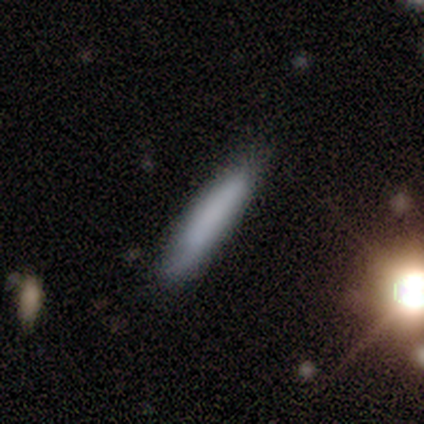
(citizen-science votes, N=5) Overall: smooth (80%). How rounded: in between (50%, tied with cigar-shaped). Merging: none (80%).